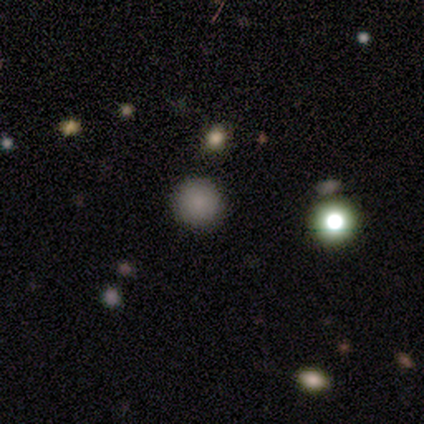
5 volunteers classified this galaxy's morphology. Q: Smooth or featured?
A: smooth (80%); runner-up: star or artifact (20%)
Q: How rounded?
A: round (100%)
Q: Merging?
A: none (75%); runner-up: merger (25%)